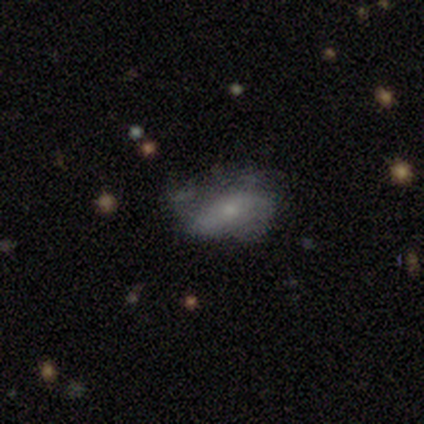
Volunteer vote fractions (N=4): This appears to be a smooth galaxy with no disk features (75%) that is in between round and cigar-shaped (67%). Merging: major disturbance (67%).